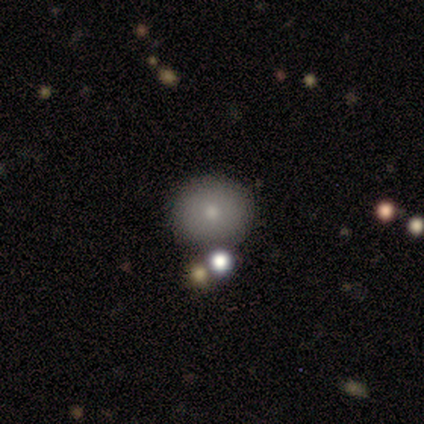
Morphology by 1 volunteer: smooth 100%, featured or disk 0%, star or artifact 0%. Down the decision tree: how rounded — round (100%); merging — none (100%).